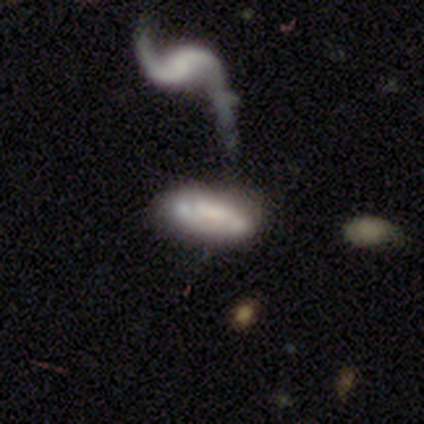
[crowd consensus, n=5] smooth-or-featured: featured or disk: 60% | smooth: 40% | star or artifact: 0%
  disk-edge-on: no: 67% | yes: 33%
    bar: weak: 100% | strong: 0% | no: 0%
    has-spiral-arms: yes: 100% | no: 0%
      spiral-winding: tight: 50% (tied) | medium: 50% (tied) | loose: 0%
      spiral-arm-count: 1: 50% (tied) | 2: 50% (tied) | 3: 0% | 4: 0% | more than 4: 0% | can't tell: 0%
    bulge-size: small: 100% | dominant: 0% | large: 0% | moderate: 0% | none: 0%
  merging: merger: 60% | none: 20% | minor disturbance: 20% | major disturbance: 0%